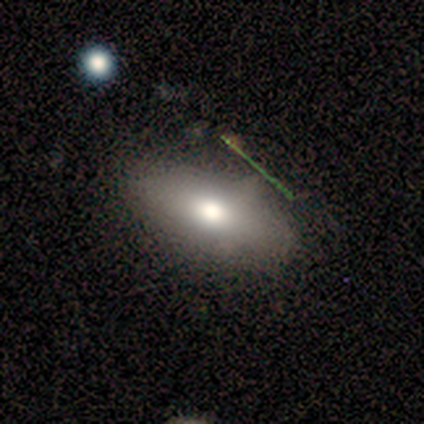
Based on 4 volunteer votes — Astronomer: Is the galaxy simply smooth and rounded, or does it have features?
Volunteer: smooth — 100%.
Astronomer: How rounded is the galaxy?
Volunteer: in between — 75%.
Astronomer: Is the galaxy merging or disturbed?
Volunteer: none — 75%.